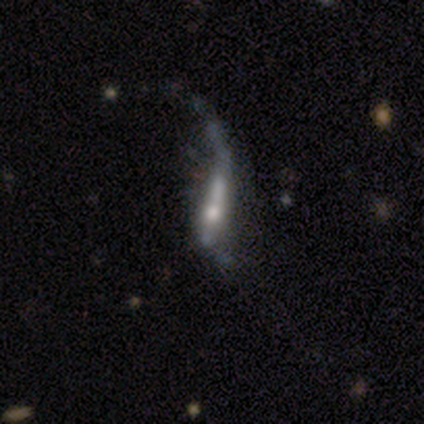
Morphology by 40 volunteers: Smooth or featured: featured or disk — 90% (smooth — 8%)
Edge-on disk: no — 58% (yes — 42%)
Bar: strong — 48% (no — 33%)
Spiral arms: yes — 67% (no — 33%)
Spiral winding: loose — 100%
Spiral arm count: 1 — 64% (2 — 21%)
Bulge size: moderate — 52% (small — 38%)
Merging: major disturbance — 56% (none — 18%)